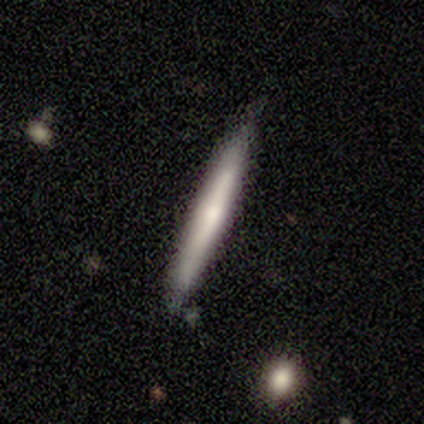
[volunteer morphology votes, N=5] Smooth or featured?
  - featured or disk: 60% *
  - smooth: 40%
  - star or artifact: 0%
Edge-on disk?
  - yes: 100% *
  - no: 0%
Edge-on bulge?
  - rounded: 67% *
  - none: 33%
  - boxy: 0%
Merging?
  - none: 80% *
  - minor disturbance: 20%
  - major disturbance: 0%
  - merger: 0%